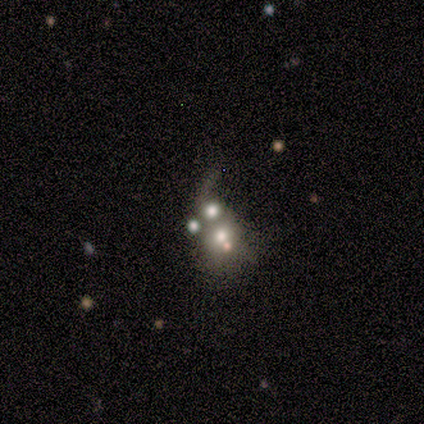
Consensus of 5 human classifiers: This is marginally a featured or disk galaxy (40%, tied with star or artifact). It is clearly not viewed edge-on (100%). Bar: clearly no (100%). Spiral arm pattern: possibly yes (50%, tied with no). Spiral arm count: clearly 1 (100%). Spiral winding: clearly loose (100%). Central bulge: clearly moderate (100%). Merging: likely merger (67%).